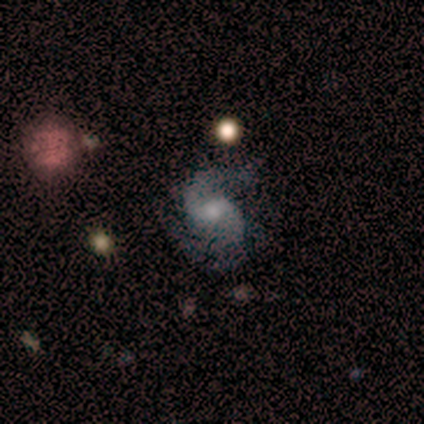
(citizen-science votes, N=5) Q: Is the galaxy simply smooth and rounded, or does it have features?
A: featured or disk — 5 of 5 (100%).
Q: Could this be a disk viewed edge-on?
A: no — 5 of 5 (100%).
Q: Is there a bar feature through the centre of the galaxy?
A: no — 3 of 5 (60%).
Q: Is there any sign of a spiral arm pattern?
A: yes — 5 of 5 (100%).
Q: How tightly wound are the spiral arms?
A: medium — 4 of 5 (80%).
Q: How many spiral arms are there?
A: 2 — 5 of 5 (100%).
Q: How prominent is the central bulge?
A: small — 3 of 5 (60%).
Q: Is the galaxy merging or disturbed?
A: none — 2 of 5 (40%).